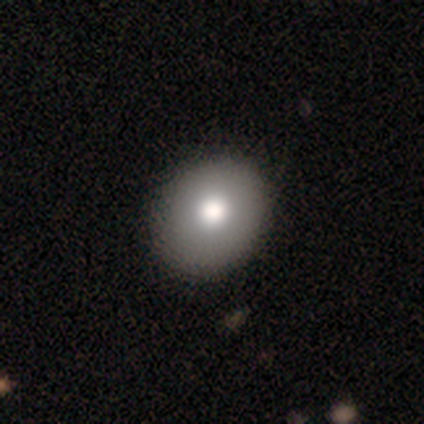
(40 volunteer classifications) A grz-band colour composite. It shows a smooth galaxy with no disk features (85%) that is round (68%). Merging: none (74%).